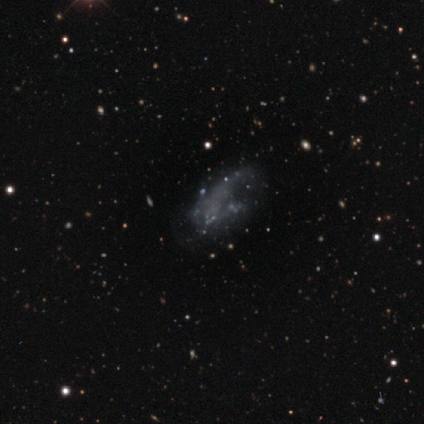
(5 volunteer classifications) Smooth or featured? 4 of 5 (80%) said featured or disk. Edge-on disk? 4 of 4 (100%) said no. Bar? 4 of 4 (100%) said no. Spiral arms? 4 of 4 (100%) said no. Bulge size? 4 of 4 (100%) said none. Merging? 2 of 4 (50%, tied with major disturbance) said none.